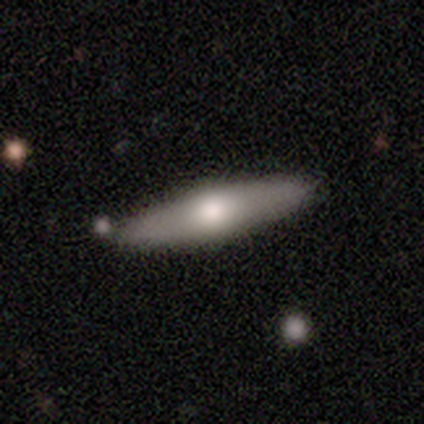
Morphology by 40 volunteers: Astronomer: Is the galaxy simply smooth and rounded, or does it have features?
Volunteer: smooth — 50% (runner-up: featured or disk, 45%).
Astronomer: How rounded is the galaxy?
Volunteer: cigar-shaped — 75%.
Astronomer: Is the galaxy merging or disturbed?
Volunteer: none — 55%.